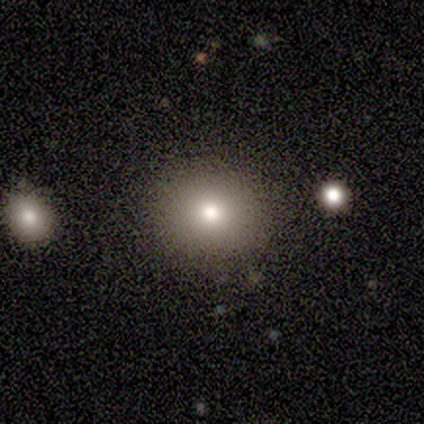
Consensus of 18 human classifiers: Smooth or featured? 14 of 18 (78%) said smooth. How rounded? 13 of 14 (93%) said round. Merging? 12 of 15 (80%) said none.